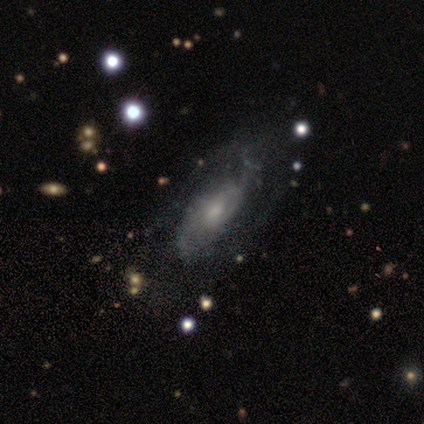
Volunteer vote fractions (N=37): smooth-or-featured: featured or disk: 81% | smooth: 14% | star or artifact: 5%
  disk-edge-on: no: 93% | yes: 7%
    bar: no: 75% | weak: 25% | strong: 0%
    has-spiral-arms: yes: 75% | no: 25%
      spiral-winding: medium: 48% | loose: 33% | tight: 19%
      spiral-arm-count: 2: 57% | can't tell: 29% | 1: 10% | 4: 5% | 3: 0% | more than 4: 0%
    bulge-size: moderate: 54% | small: 39% | large: 4% | none: 4% | dominant: 0%
  merging: none: 71% | minor disturbance: 23% | major disturbance: 6% | merger: 0%